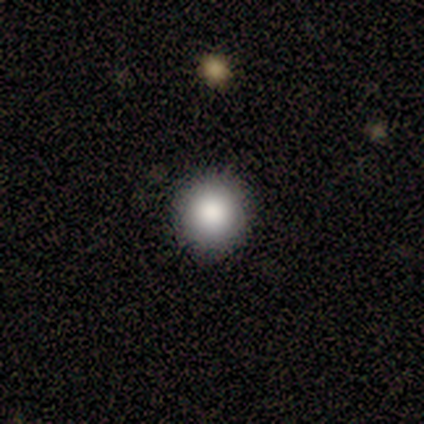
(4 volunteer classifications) Smooth or featured: smooth — 75% (featured or disk — 25%)
How rounded: round — 100%
Merging: none — 75% (minor disturbance — 25%)